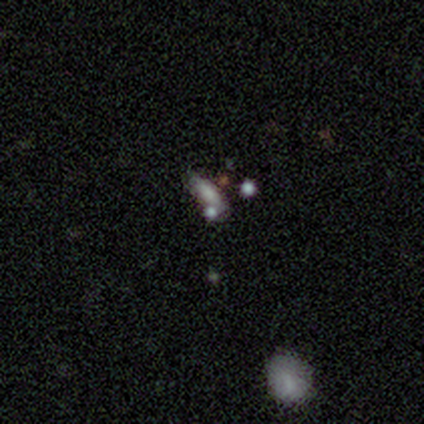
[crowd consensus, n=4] Smooth or featured? smooth (50%, tied with star or artifact)
How rounded? in between (50%, tied with cigar-shaped)
Merging? none (50%, tied with major disturbance)